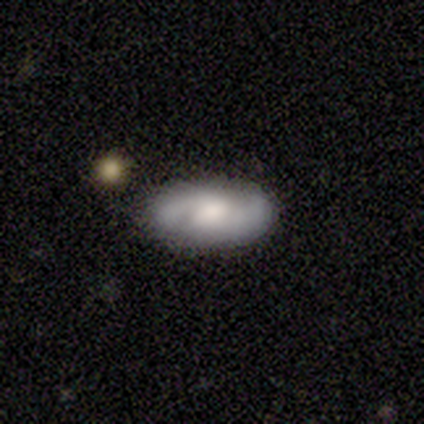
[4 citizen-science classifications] Q: Smooth or featured?
A: smooth (50%); tied with: featured or disk (50%)
Q: How rounded?
A: in between (100%)
Q: Merging?
A: none (100%)